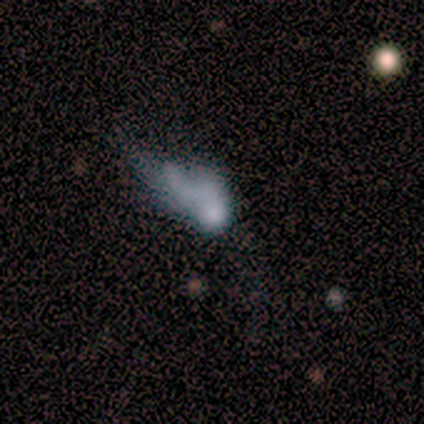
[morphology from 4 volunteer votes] Smooth or featured?
  - smooth: 50% *
  - featured or disk: 25%
  - star or artifact: 25%
How rounded?
  - in between: 100% *
  - round: 0%
  - cigar-shaped: 0%
Merging?
  - major disturbance: 67% *
  - none: 33%
  - minor disturbance: 0%
  - merger: 0%